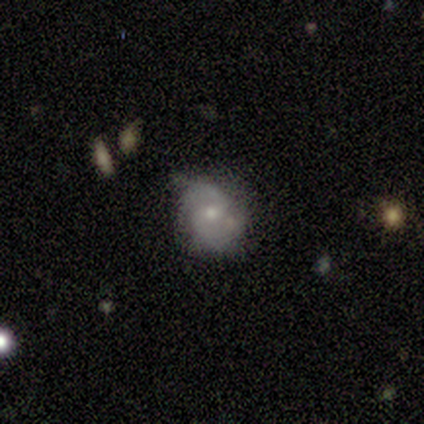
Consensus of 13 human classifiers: This appears to be a featured or disk galaxy (92%) with no bar (50%), 2 (70%) medium (70%) spiral arms (83%) and a small central bulge (83%). Merging: none (69%).